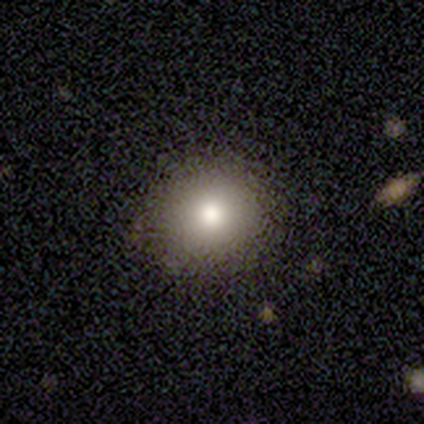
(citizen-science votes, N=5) Smooth or featured: smooth — 100%
How rounded: round — 100%
Merging: none — 60% (minor disturbance — 40%)